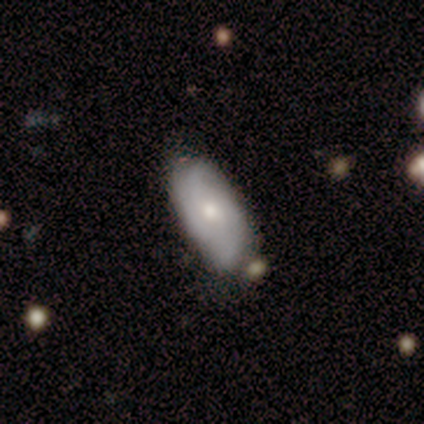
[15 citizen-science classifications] A smooth galaxy with no disk features (60%) that is in between round and cigar-shaped (100%). Merging: none (53%).